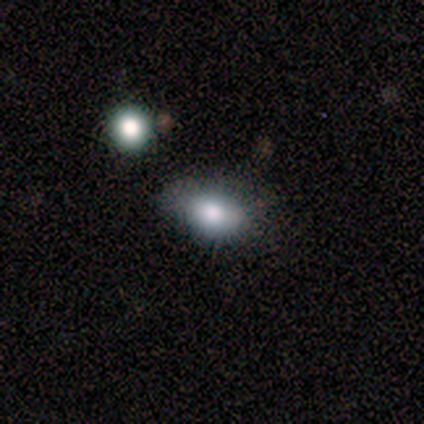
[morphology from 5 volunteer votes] Smooth or featured?
  - smooth: 80% *
  - featured or disk: 20%
  - star or artifact: 0%
How rounded?
  - in between: 75% *
  - round: 25%
  - cigar-shaped: 0%
Merging?
  - none: 100% *
  - minor disturbance: 0%
  - major disturbance: 0%
  - merger: 0%